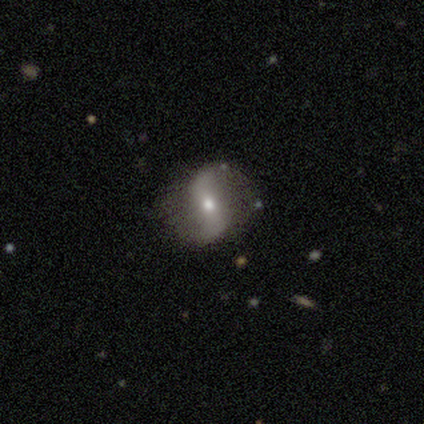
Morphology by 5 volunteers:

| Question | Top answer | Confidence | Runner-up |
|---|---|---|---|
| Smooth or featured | featured or disk | 100% | — |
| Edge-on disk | no | 100% | — |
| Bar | weak | 80% | strong (20%) |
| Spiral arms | yes | 100% | — |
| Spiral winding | loose | 60% | medium (40%) |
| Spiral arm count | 2 | 80% | 1 (20%) |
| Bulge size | small | 60% | moderate (40%) |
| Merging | none | 100% | — |